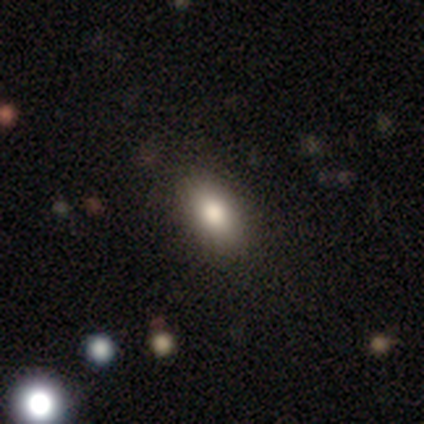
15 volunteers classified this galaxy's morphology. Smooth or featured?
  - smooth: 80% *
  - featured or disk: 13%
  - star or artifact: 7%
How rounded?
  - in between: 83% *
  - round: 8%
  - cigar-shaped: 8%
Merging?
  - none: 86% *
  - minor disturbance: 14%
  - major disturbance: 0%
  - merger: 0%